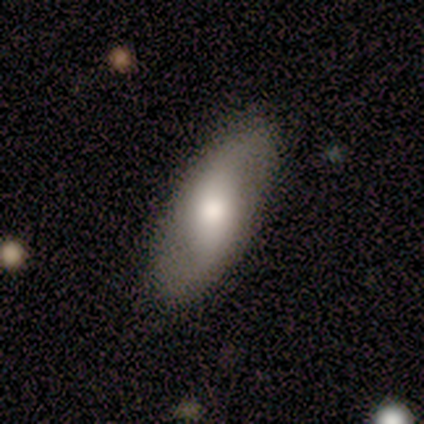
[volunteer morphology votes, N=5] This is likely a featured or disk galaxy (60%). It is clearly not viewed edge-on (100%). Bar: likely weak (67%). Spiral arm pattern: likely yes (67%). Spiral arm count: clearly 2 (100%). Spiral winding: clearly loose (100%). Central bulge: likely moderate (67%). Merging: clearly none (100%).